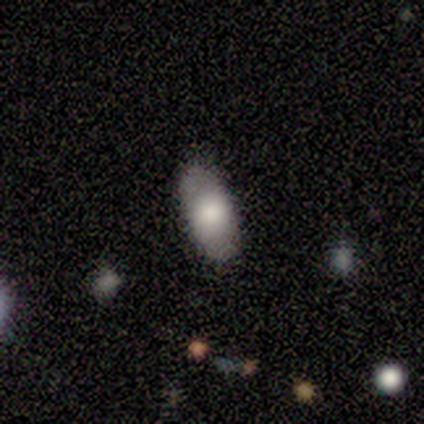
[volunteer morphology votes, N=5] smooth 100%, featured or disk 0%, star or artifact 0%. Down the decision tree: how rounded — in between (80%); merging — none (100%).